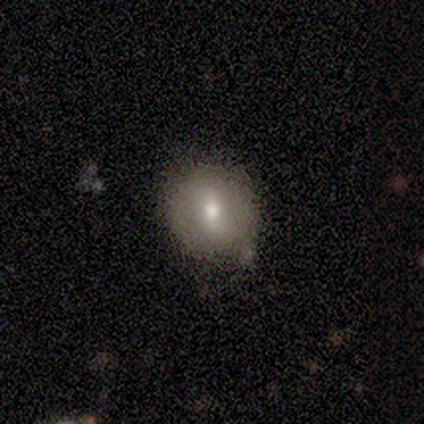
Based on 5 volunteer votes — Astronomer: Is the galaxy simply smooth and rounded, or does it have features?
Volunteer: smooth — 60%.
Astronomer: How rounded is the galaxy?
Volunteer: round — 100%.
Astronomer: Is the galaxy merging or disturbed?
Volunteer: minor disturbance — 75%.